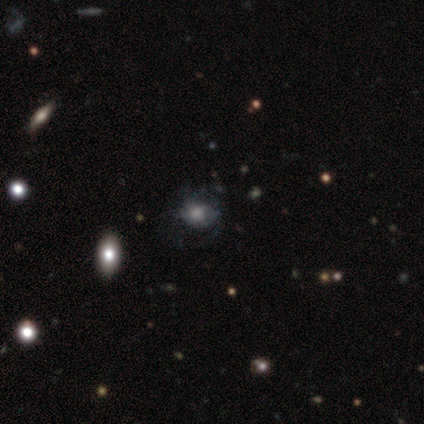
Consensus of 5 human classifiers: Smooth or featured? 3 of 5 (60%) said smooth. How rounded? 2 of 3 (67%) said round. Merging? 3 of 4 (75%) said none.